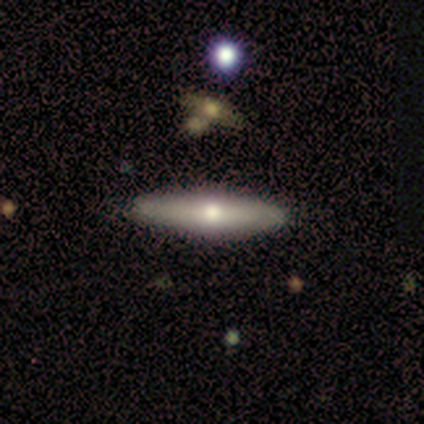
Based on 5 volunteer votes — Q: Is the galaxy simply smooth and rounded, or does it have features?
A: smooth — 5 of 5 (100%).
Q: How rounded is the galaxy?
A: cigar-shaped — 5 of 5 (100%).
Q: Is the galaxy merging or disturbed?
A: none — 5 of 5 (100%).